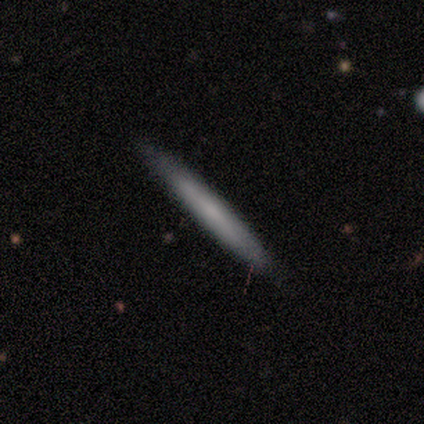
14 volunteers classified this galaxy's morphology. Overall: smooth (57%; featured or disk 36%). How rounded: cigar-shaped (100%). Merging: none (85%).